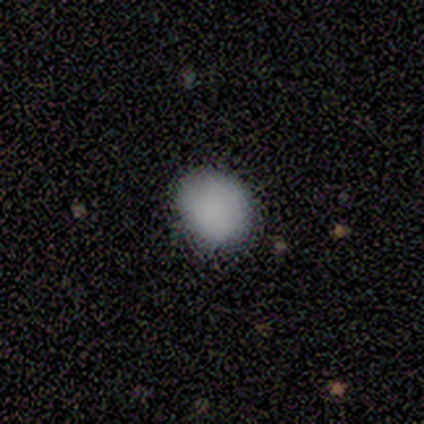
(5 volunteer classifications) This appears to be a smooth galaxy with no disk features (100%) that is round (100%). Merging: none (100%).